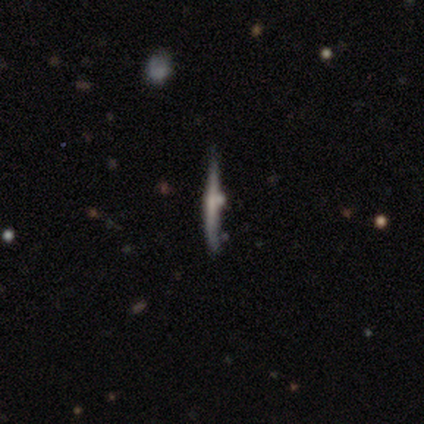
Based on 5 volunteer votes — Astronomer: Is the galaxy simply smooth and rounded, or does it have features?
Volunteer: featured or disk — 60% (runner-up: smooth, 40%).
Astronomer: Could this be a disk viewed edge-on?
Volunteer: yes — 100%.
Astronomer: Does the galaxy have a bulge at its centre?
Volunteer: none — 100%.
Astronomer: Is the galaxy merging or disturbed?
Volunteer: none — 80%.